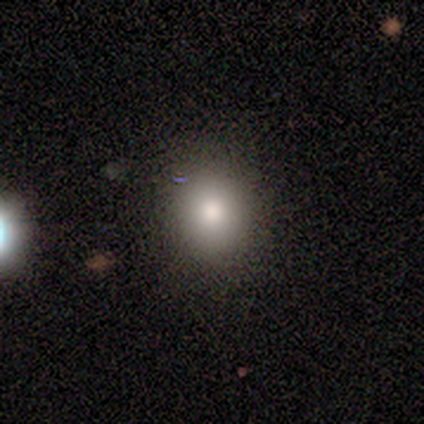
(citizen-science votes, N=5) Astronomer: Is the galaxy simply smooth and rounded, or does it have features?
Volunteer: smooth — 100%.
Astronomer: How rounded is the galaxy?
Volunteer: round — 80%.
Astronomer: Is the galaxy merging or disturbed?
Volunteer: none — 80%.